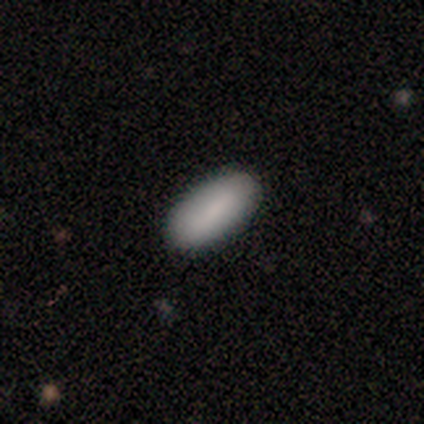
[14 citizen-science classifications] Overall: smooth (86%). How rounded: in between (92%). Merging: none (85%).